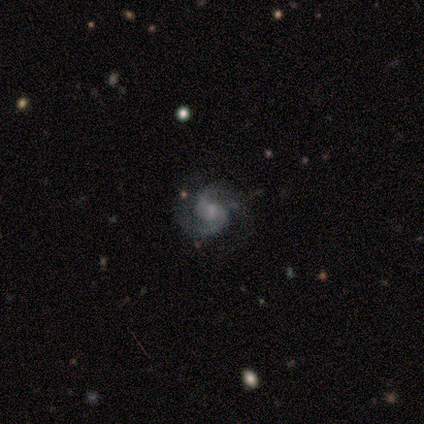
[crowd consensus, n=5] Smooth or featured? featured or disk (80%)
Edge-on disk? no (100%)
Bar? no (75%)
Spiral arms? yes (100%)
Spiral winding? medium (75%)
Spiral arm count? 2 (100%)
Bulge size? small (75%)
Merging? none (100%)